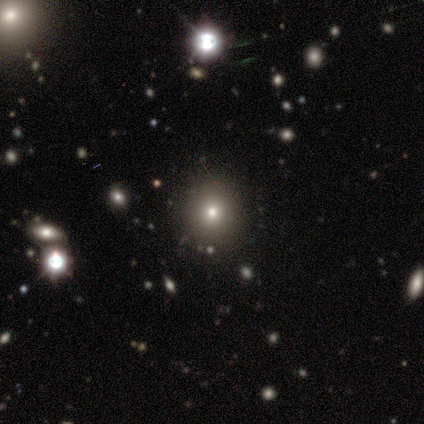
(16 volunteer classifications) smooth-or-featured: smooth: 69% | star or artifact: 25% | featured or disk: 6%
  how-rounded: round: 100% | in between: 0% | cigar-shaped: 0%
  merging: none: 100% | minor disturbance: 0% | major disturbance: 0% | merger: 0%